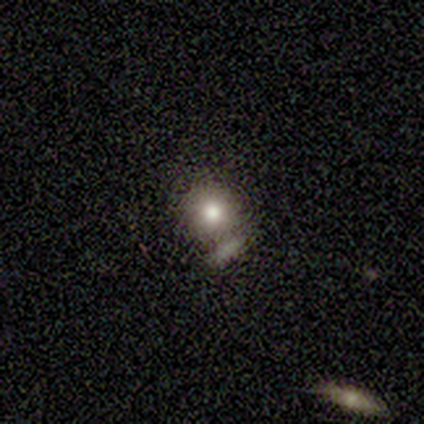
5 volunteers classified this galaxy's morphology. type=smooth (100%); roundness=round (100%); merging=none (60%).